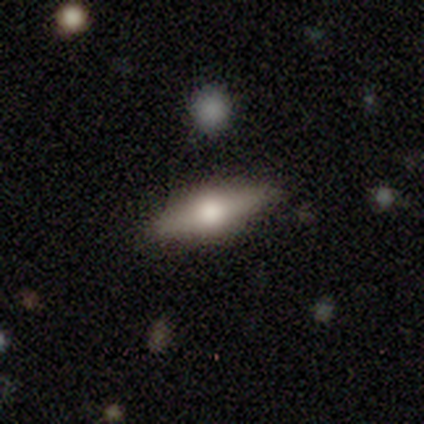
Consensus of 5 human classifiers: Smooth or featured?
  - smooth: 40% * (tied)
  - featured or disk: 40% * (tied)
  - star or artifact: 20%
How rounded?
  - cigar-shaped: 100% *
  - round: 0%
  - in between: 0%
Merging?
  - none: 100% *
  - minor disturbance: 0%
  - major disturbance: 0%
  - merger: 0%